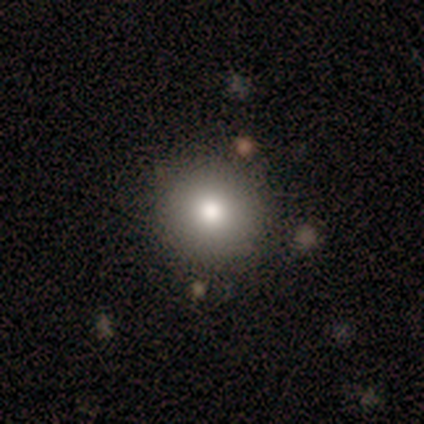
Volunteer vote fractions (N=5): Overall: smooth (80%). How rounded: round (100%). Merging: none (100%).